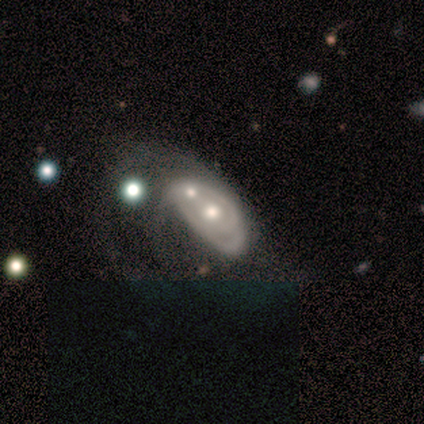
Q: Smooth or featured?
A: featured or disk (75%); runner-up: smooth (25%)
Q: Edge-on disk?
A: no (100%)
Q: Bar?
A: no (100%)
Q: Spiral arms?
A: yes (100%)
Q: Spiral winding?
A: medium (67%); runner-up: tight (33%)
Q: Spiral arm count?
A: can't tell (67%); runner-up: 1 (33%)
Q: Bulge size?
A: moderate (100%)
Q: Merging?
A: merger (75%); runner-up: minor disturbance (25%)